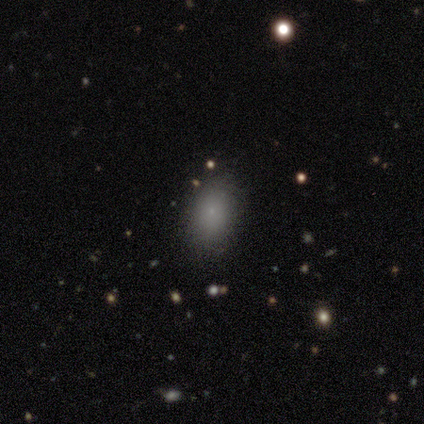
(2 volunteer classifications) This appears to be a smooth galaxy with no disk features (50%, tied with featured or disk) that is in between round and cigar-shaped (100%). Merging: none (100%).